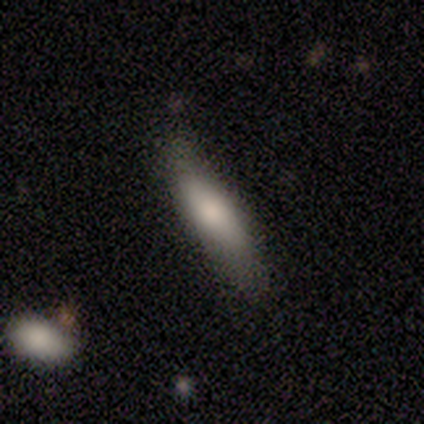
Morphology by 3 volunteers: Volunteers were most divided on "how rounded": cigar-shaped: 67%, in between: 33%, round: 0%. More confident: smooth or featured — smooth (100%); merging — none (67%).